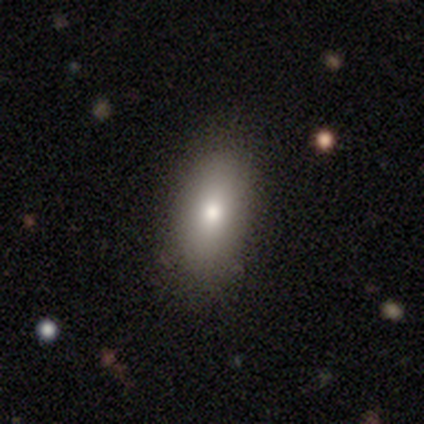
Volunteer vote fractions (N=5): smooth_or_featured: featured or disk (p=0.60) [alt: smooth p=0.40]
disk_edge_on: yes (p=0.67) [alt: no p=0.33]
edge_on_bulge: rounded (p=1.00)
merging: none (p=1.00)